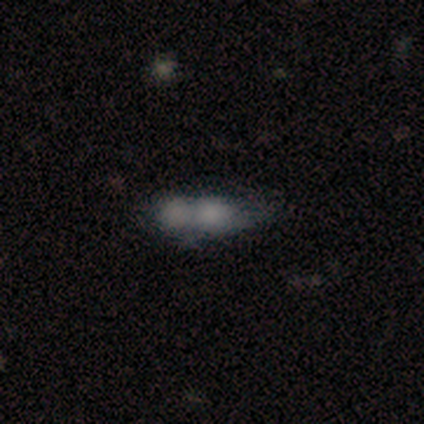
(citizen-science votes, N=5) Q: Smooth or featured?
A: smooth (80%); runner-up: featured or disk (20%)
Q: How rounded?
A: in between (100%)
Q: Merging?
A: merger (80%); runner-up: minor disturbance (20%)